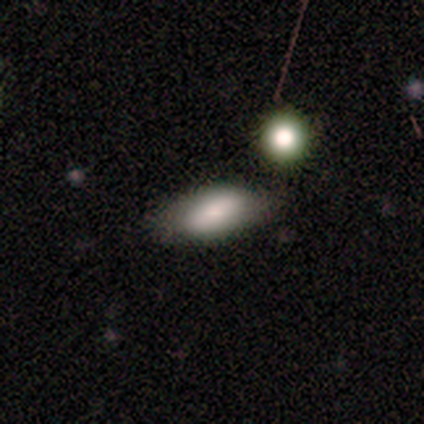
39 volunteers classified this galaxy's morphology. A smooth galaxy with no disk features (69%) that is in between round and cigar-shaped (96%). Merging: none (42%).